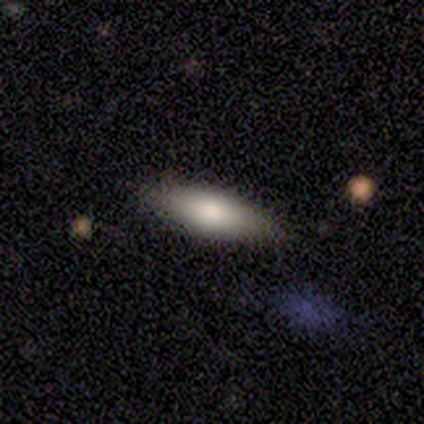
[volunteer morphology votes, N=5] A smooth galaxy with no disk features (40%, tied with featured or disk) that is in between round and cigar-shaped (100%). Merging: none (100%).